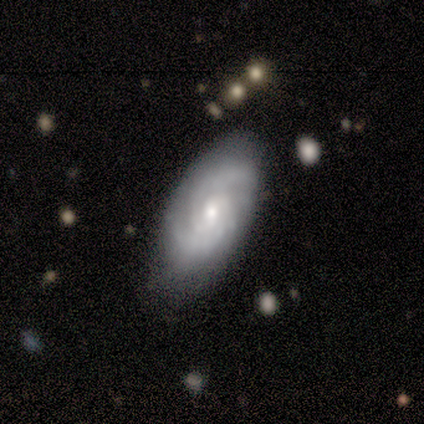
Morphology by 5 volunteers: This appears to be a smooth galaxy with no disk features (60%) that is in between round and cigar-shaped (100%). Merging: none (100%).